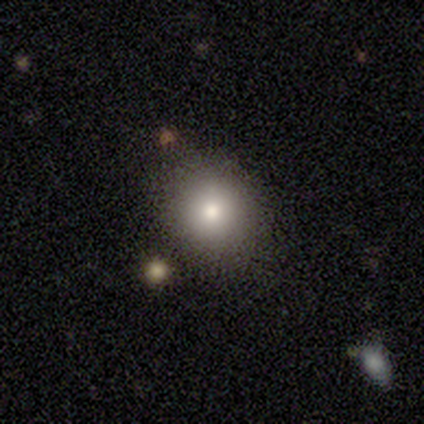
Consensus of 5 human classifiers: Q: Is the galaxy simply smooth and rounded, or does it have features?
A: smooth — 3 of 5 (60%).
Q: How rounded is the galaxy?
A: round — 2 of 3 (67%).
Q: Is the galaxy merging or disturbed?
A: none — 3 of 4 (75%).